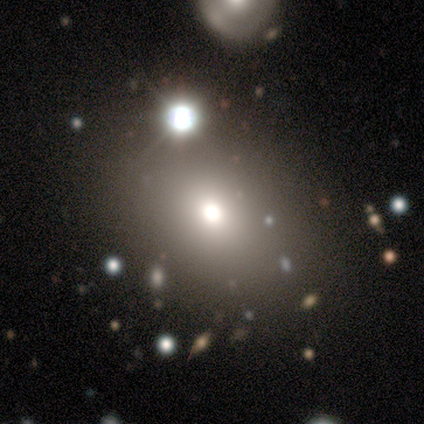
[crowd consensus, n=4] smooth 50% (tied), star or artifact 50% (tied), featured or disk 0%. Down the decision tree: how rounded — round (100%); merging — none (100%).